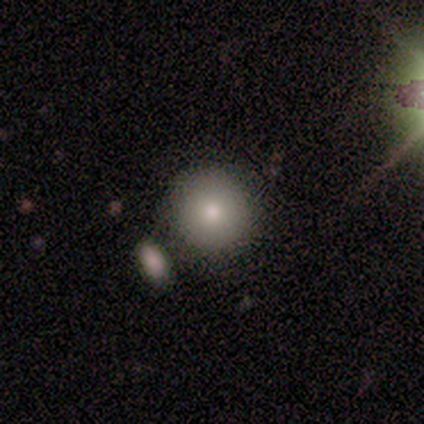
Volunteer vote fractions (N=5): Morphology: type=smooth (80%); roundness=round (100%); merging=none (60%).